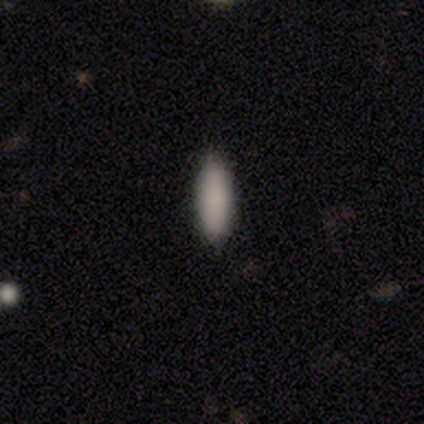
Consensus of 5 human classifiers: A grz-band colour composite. It shows a smooth galaxy with no disk features (100%) that is in between round and cigar-shaped (60%). Merging: none (100%).